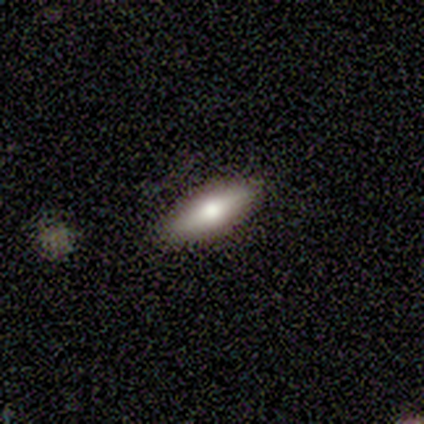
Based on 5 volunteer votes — This appears to be a featured or disk galaxy (60%) viewed edge-on (100%) with a rounded central bulge (100%). Merging: none (100%).